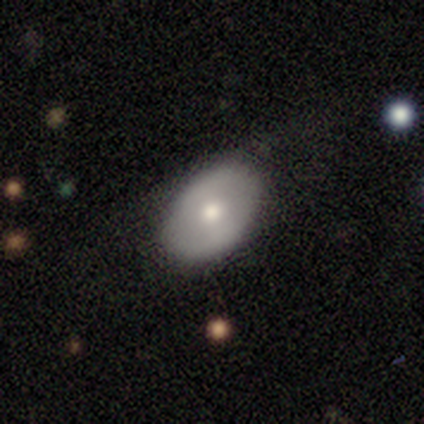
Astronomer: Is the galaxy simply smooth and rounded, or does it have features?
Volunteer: smooth — 50%, tied with featured or disk at 50%.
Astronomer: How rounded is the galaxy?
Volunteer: round — 100%.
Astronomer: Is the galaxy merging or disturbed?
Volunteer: none — 100%.